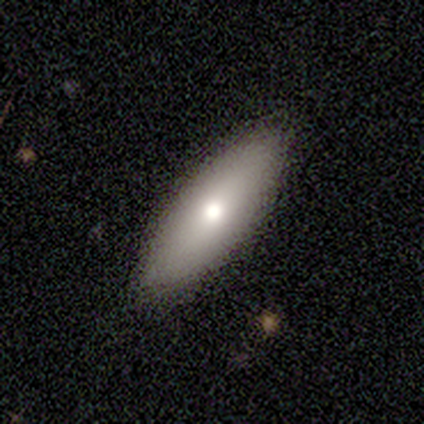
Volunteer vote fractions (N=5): smooth-or-featured: smooth: 80% | featured or disk: 20% | star or artifact: 0%
  how-rounded: in between: 75% | cigar-shaped: 25% | round: 0%
  merging: none: 80% | merger: 20% | minor disturbance: 0% | major disturbance: 0%